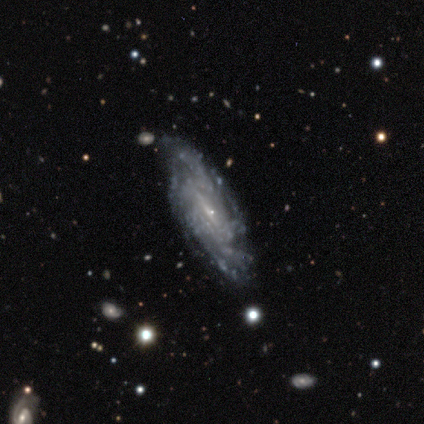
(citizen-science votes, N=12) Q: Smooth or featured?
A: featured or disk (100%)
Q: Edge-on disk?
A: no (100%)
Q: Bar?
A: weak (58%); runner-up: strong (25%)
Q: Spiral arms?
A: yes (92%); runner-up: no (8%)
Q: Spiral winding?
A: tight (55%); runner-up: medium (27%)
Q: Spiral arm count?
A: can't tell (36%); runner-up: more than 4 (27%)
Q: Bulge size?
A: small (100%)
Q: Merging?
A: none (75%); runner-up: minor disturbance (17%)